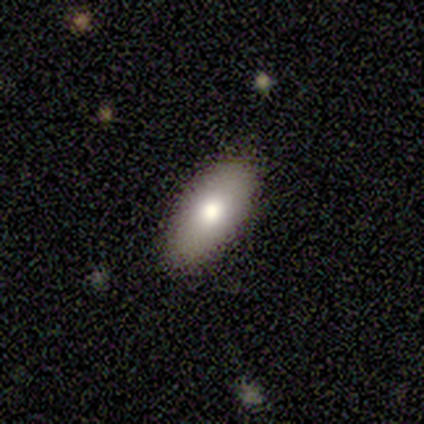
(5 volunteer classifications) smooth-or-featured: smooth: 100% | featured or disk: 0% | star or artifact: 0%
  how-rounded: in between: 100% | round: 0% | cigar-shaped: 0%
  merging: none: 80% | minor disturbance: 20% | major disturbance: 0% | merger: 0%